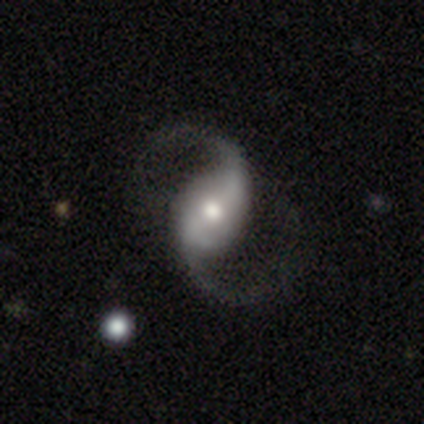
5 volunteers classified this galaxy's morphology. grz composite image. It shows a featured or disk galaxy (100%) with a strong bar (100%), 2 (100%) loose (80%) spiral arms (100%) and a moderate central bulge (80%). Merging: none (80%).